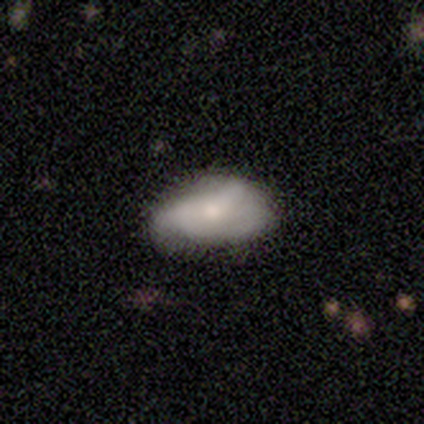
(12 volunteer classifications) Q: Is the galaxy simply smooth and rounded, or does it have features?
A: smooth — 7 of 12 (58%).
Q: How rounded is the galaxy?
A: in between — 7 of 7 (100%).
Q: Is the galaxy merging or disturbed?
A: none — 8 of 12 (67%).